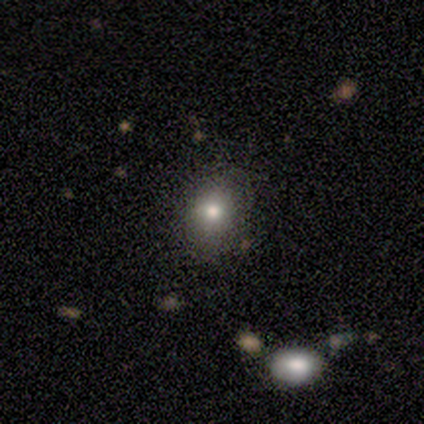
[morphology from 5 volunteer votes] Smooth or featured? 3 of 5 (60%) said smooth. How rounded? 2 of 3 (67%) said in between. Merging? 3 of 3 (100%) said none.